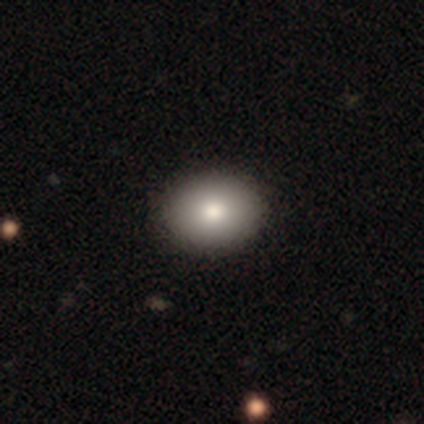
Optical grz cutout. It shows a smooth galaxy with no disk features (100%) that is round (50%, tied with in between). Merging: none (83%).